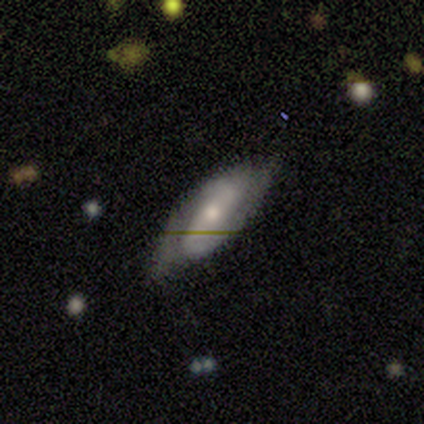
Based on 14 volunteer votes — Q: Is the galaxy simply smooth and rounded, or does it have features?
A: featured or disk — 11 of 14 (79%).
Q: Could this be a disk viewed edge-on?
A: no — 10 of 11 (91%).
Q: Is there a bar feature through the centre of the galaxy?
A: weak — 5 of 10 (50%).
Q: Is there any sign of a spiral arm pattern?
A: yes — 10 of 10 (100%).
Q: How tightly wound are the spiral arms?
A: loose — 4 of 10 (40%).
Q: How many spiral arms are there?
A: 2 — 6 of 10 (60%).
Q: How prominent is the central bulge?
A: moderate — 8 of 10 (80%).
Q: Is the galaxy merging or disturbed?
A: none — 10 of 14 (71%).